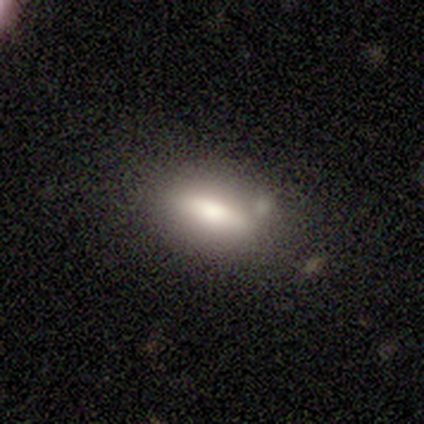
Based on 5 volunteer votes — This is clearly a smooth galaxy (80%). How rounded: likely in between (75%). Merging: clearly none (100%).